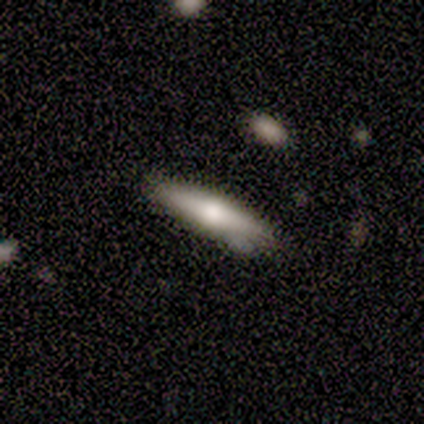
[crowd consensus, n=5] Smooth or featured? featured or disk (80%)
Edge-on disk? yes (100%)
Edge-on bulge? rounded (75%)
Merging? none (60%)